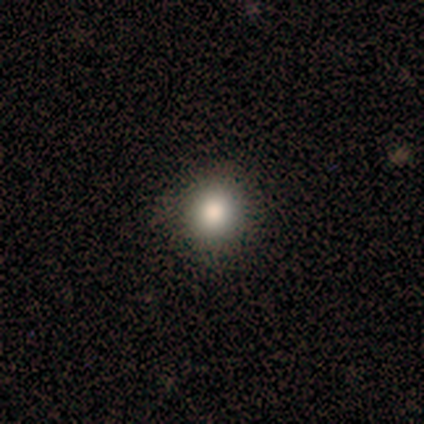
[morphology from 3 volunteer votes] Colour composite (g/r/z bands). It shows a smooth galaxy with no disk features (67%) that is round (100%). Merging: none (100%).